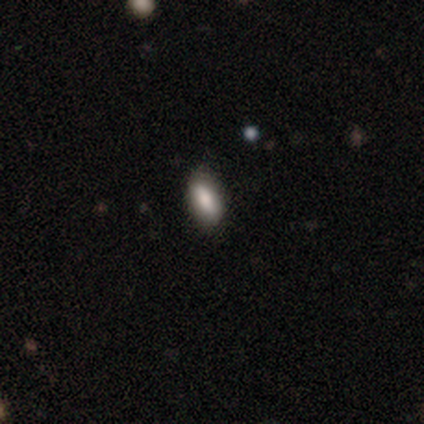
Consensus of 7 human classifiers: Q: Smooth or featured?
A: smooth (86%); runner-up: star or artifact (14%)
Q: How rounded?
A: in between (83%); runner-up: cigar-shaped (17%)
Q: Merging?
A: none (100%)